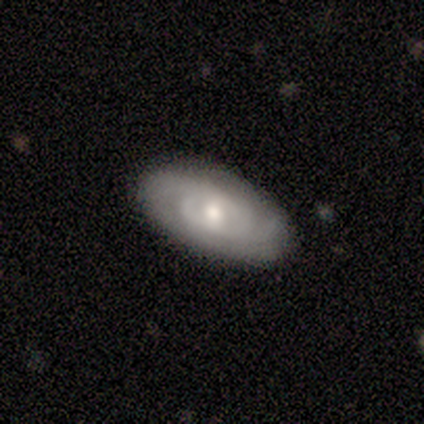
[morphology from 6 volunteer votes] smooth-or-featured: featured or disk: 67% | smooth: 33% | star or artifact: 0%
  disk-edge-on: yes: 50% (tied) | no: 50% (tied)
    edge-on-bulge: boxy: 50% (tied) | rounded: 50% (tied) | none: 0%
  merging: none: 83% | minor disturbance: 17% | major disturbance: 0% | merger: 0%